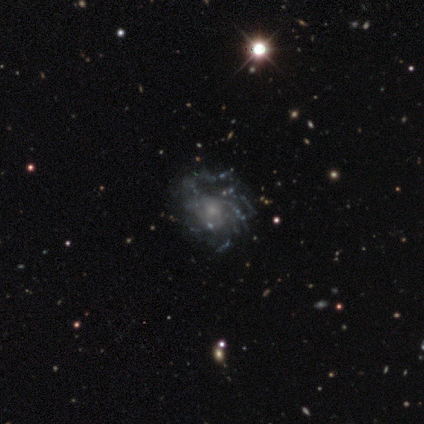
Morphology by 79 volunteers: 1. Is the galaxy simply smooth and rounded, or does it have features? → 89% featured or disk, 9% star or artifact, 3% smooth.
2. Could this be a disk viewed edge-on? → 99% no, 1% yes.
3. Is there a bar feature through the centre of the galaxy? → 87% no, 13% weak, 0% strong.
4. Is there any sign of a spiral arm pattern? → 91% yes, 9% no.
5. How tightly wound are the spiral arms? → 37% tight, 35% medium, 29% loose.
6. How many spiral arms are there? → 57% can't tell, 19% more than 4, 11% 3, 10% 4, 3% 2, 0% 1.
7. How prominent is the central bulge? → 62% small, 20% moderate, 17% none, 0% dominant, 0% large.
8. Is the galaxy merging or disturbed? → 32% none, 12% major disturbance, 7% minor disturbance, 3% merger.